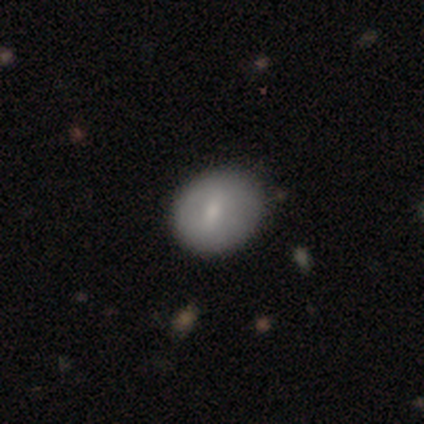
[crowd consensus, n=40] Smooth or featured? 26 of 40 (65%) said smooth. How rounded? 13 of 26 (50%, tied with in between) said round. Merging? 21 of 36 (58%) said none.